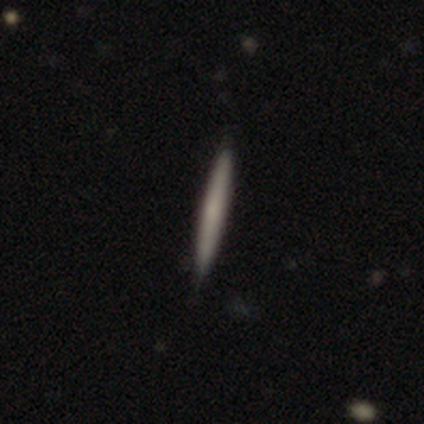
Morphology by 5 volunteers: This is likely a smooth galaxy (60%). How rounded: clearly cigar-shaped (100%). Merging: clearly none (100%).